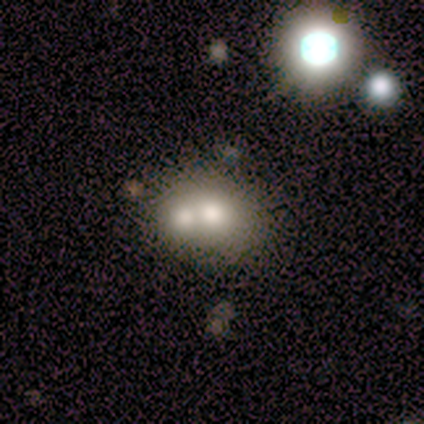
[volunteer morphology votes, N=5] This appears to be a smooth galaxy with no disk features (60%) that is round (100%). Merging: merger (60%).